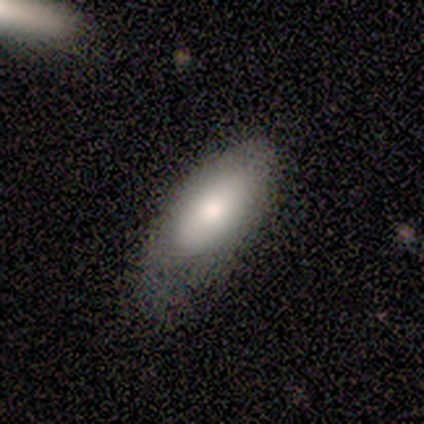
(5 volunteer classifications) Morphology: type=smooth (60%); roundness=in between (100%); merging=minor disturbance (60%).